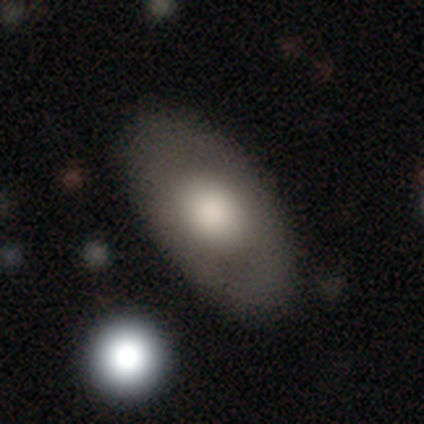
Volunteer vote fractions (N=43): Smooth or featured?
  - smooth: 70% *
  - featured or disk: 28%
  - star or artifact: 2%
How rounded?
  - in between: 90% *
  - cigar-shaped: 7%
  - round: 3%
Merging?
  - none: 79% *
  - minor disturbance: 17%
  - major disturbance: 2%
  - merger: 2%